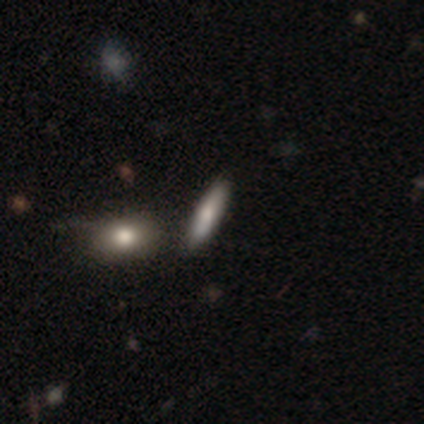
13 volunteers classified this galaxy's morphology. This appears to be a smooth galaxy with no disk features (85%) that is cigar-shaped (64%). Merging: none (69%).